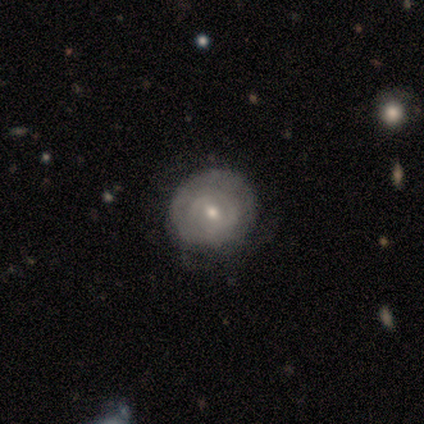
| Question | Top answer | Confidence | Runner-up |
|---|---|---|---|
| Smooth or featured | featured or disk | 62% | smooth (38%) |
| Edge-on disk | no | 100% | — |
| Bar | weak | 100% | — |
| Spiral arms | yes | 80% | no (20%) |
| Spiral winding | tight | 50% | tied: medium (50%) |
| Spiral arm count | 2 | 50% | 4 (25%) |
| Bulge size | moderate | 60% | small (40%) |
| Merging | none | 75% | minor disturbance (25%) |